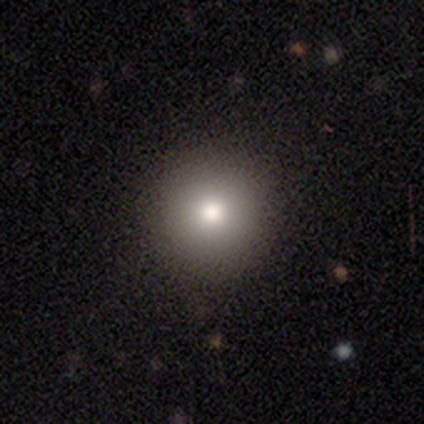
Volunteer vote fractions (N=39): Volunteers were most divided on "smooth or featured": smooth: 85%, featured or disk: 8%, star or artifact: 8%. More confident: merging — none (97%); how rounded — round (97%).